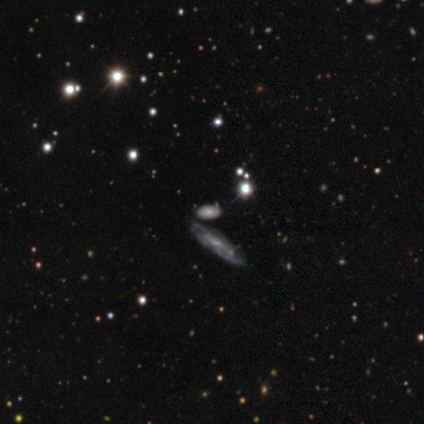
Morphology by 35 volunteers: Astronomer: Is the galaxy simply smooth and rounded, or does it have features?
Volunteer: featured or disk — 57%.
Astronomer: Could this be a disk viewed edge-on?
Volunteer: no — 65%.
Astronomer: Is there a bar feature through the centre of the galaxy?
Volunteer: no — 54% (runner-up: weak, 38%).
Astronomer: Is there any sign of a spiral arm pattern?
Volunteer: yes — 77%.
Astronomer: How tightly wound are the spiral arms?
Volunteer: tight — 40%, tied with medium at 40%.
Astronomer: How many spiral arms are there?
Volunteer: can't tell — 70%.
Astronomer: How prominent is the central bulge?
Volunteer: small — 62%.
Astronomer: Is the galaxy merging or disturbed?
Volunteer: none — 86%.